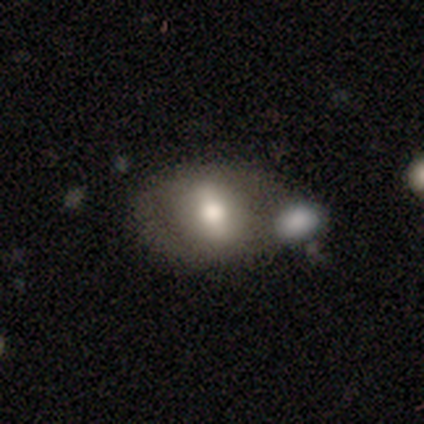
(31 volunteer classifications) smooth-or-featured: smooth: 68% | featured or disk: 26% | star or artifact: 6%
  how-rounded: in between: 81% | round: 10% | cigar-shaped: 10%
  merging: merger: 52% | none: 0% | minor disturbance: 0% | major disturbance: 0%